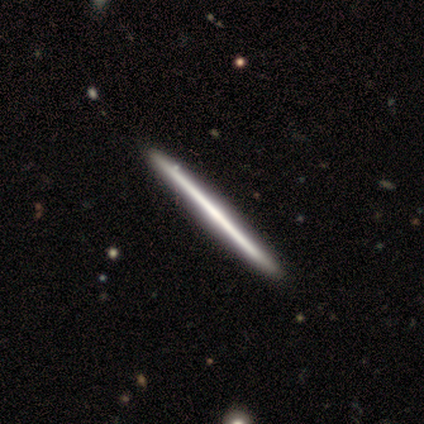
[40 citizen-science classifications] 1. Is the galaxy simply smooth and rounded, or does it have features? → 62% featured or disk, 35% smooth, 2% star or artifact.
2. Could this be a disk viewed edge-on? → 100% yes, 0% no.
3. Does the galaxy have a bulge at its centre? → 88% none, 8% rounded, 4% boxy.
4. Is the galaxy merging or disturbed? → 64% none, 5% merger, 3% major disturbance, 0% minor disturbance.